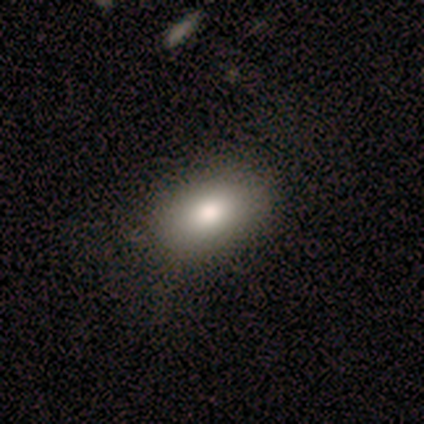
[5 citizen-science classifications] smooth 60%, featured or disk 20%, star or artifact 20%. Down the decision tree: how rounded — in between (100%); merging — none (100%).